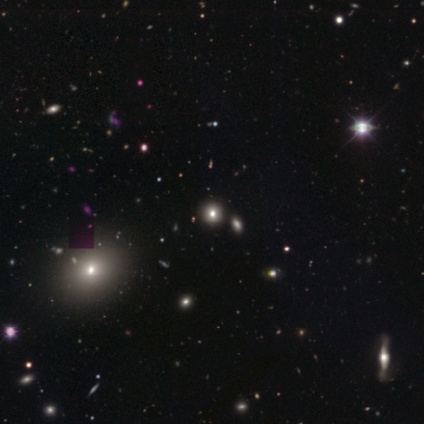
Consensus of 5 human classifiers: Overall: smooth (60%; star or artifact 40%). How rounded: round (100%). Merging: none (67%; minor disturbance 33%).